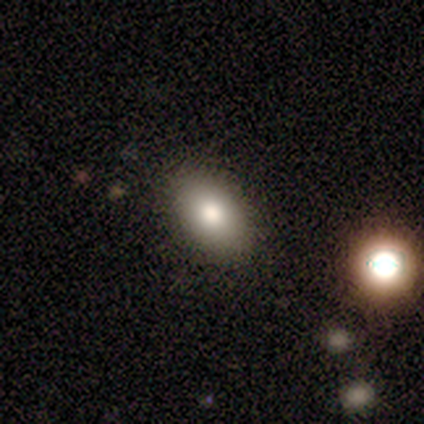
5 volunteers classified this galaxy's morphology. A smooth galaxy with no disk features (80%) that is in between round and cigar-shaped (75%). Merging: none (100%).